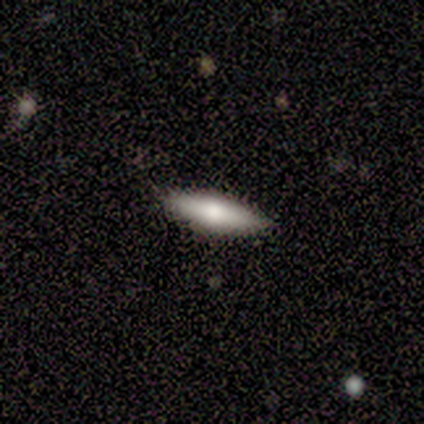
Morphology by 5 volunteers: Smooth or featured? smooth (60%)
How rounded? in between (67%)
Merging? none (100%)